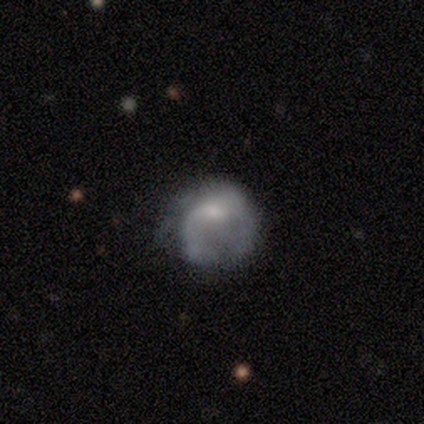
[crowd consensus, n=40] smooth_or_featured: featured or disk (p=0.68) [alt: smooth p=0.30]
disk_edge_on: no (p=1.00)
bar: no (p=0.70) [alt: weak p=0.26]
has_spiral_arms: no (p=0.52) [alt: yes p=0.48]
bulge_size: moderate (p=0.41) [alt: small p=0.30]
merging: major disturbance (p=0.51) [alt: minor disturbance p=0.28]